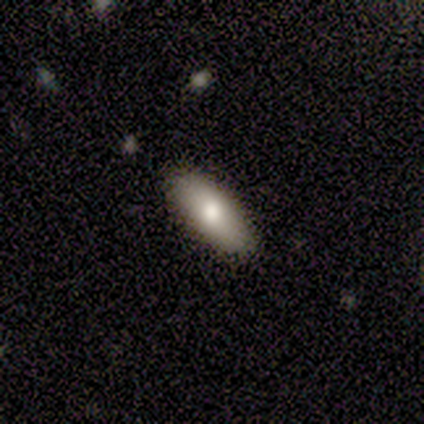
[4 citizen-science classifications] Smooth or featured?
  - smooth: 75% *
  - star or artifact: 25%
  - featured or disk: 0%
How rounded?
  - cigar-shaped: 67% *
  - in between: 33%
  - round: 0%
Merging?
  - none: 100% *
  - minor disturbance: 0%
  - major disturbance: 0%
  - merger: 0%